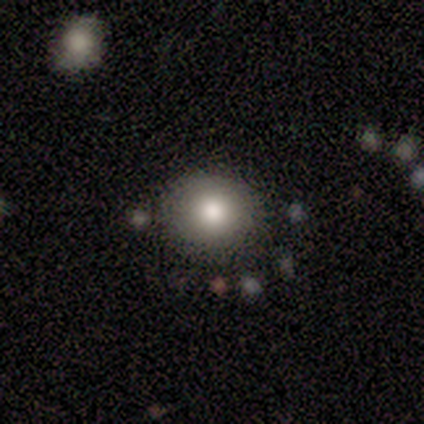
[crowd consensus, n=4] Volunteers were most divided on "how rounded": round: 67%, in between: 33%, cigar-shaped: 0%. More confident: merging — none (100%); smooth or featured — smooth (75%).